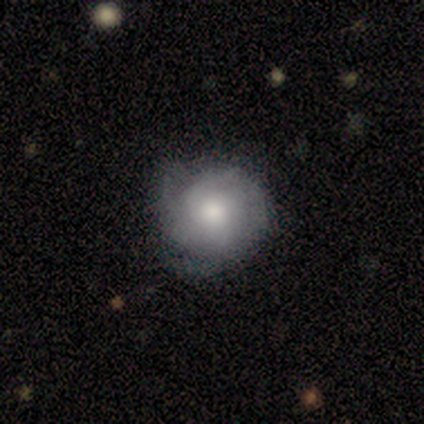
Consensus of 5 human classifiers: Smooth or featured? 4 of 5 (80%) said featured or disk. Edge-on disk? 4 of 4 (100%) said no. Bar? 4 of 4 (100%) said no. Spiral arms? 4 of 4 (100%) said yes. Spiral winding? 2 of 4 (50%) said tight. Spiral arm count? 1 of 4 (25%, tied with 2, 3 and can't tell) said 1. Bulge size? 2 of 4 (50%, tied with small) said moderate. Merging? 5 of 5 (100%) said none.